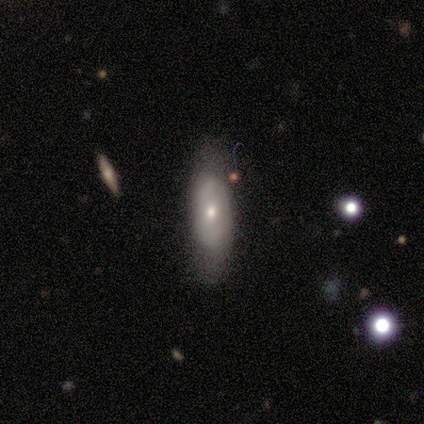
smooth_or_featured: featured or disk (p=0.60) [alt: smooth p=0.40]
disk_edge_on: yes (p=0.67) [alt: no p=0.33]
edge_on_bulge: rounded (p=1.00)
merging: none (p=0.80) [alt: minor disturbance p=0.20]